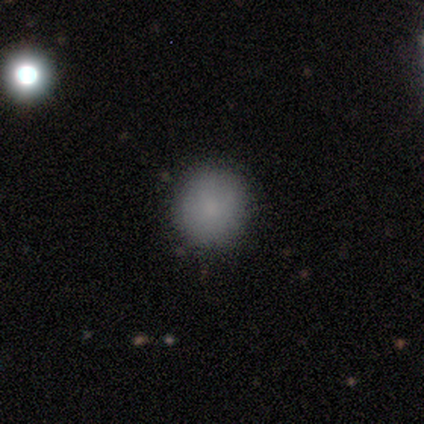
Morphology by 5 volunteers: Smooth or featured? smooth (100%)
How rounded? round (80%)
Merging? none (100%)